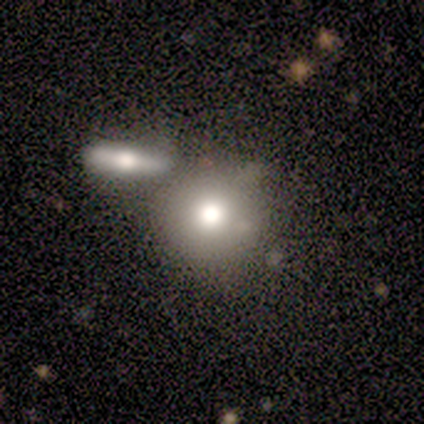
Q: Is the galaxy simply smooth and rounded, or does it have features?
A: smooth — 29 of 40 (72%).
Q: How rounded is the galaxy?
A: round — 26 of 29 (90%).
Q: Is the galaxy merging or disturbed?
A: none — 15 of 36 (42%, tied with merger).